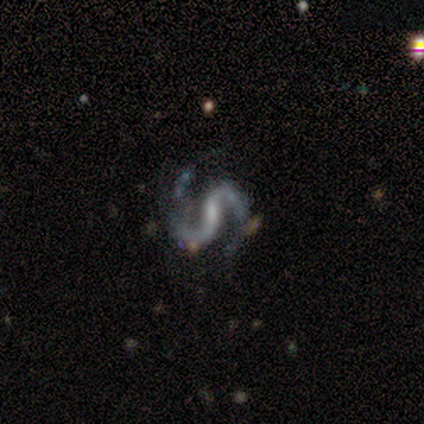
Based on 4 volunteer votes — Smooth or featured: featured or disk — 100%
Edge-on disk: no — 100%
Bar: strong — 50% (tied with weak — 50%)
Spiral arms: yes — 100%
Spiral winding: loose — 75% (medium — 25%)
Spiral arm count: 2 — 100%
Bulge size: small — 50% (tied with none — 50%)
Merging: none — 75% (major disturbance — 25%)